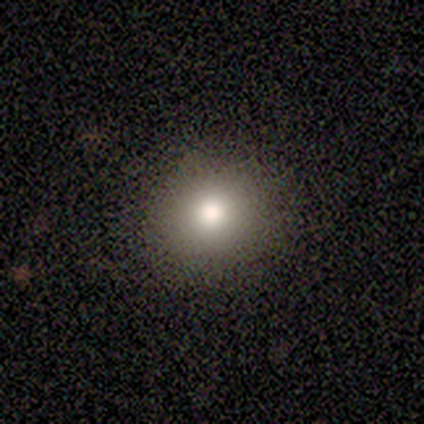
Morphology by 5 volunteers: A smooth galaxy with no disk features (40%, tied with featured or disk) that is round (100%).

Vote fractions:
- Smooth or featured? smooth: 40% (tied) / featured or disk: 40% (tied) / star or artifact: 20%
- How rounded? round: 100% / in between: 0% / cigar-shaped: 0%
- Merging? none: 100% / minor disturbance: 0% / major disturbance: 0% / merger: 0%